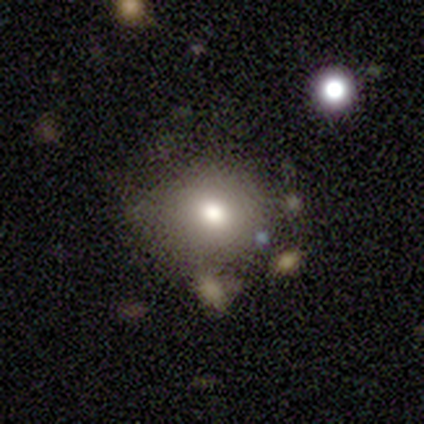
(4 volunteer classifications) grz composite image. It shows a smooth galaxy with no disk features (100%) that is round (75%). Merging: none (50%, tied with minor disturbance).